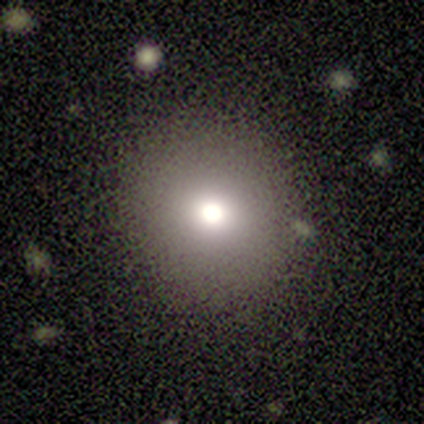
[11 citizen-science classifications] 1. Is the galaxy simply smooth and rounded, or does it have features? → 100% smooth, 0% featured or disk, 0% star or artifact.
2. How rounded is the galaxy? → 91% round, 9% in between, 0% cigar-shaped.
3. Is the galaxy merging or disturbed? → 91% none, 9% major disturbance, 0% minor disturbance, 0% merger.